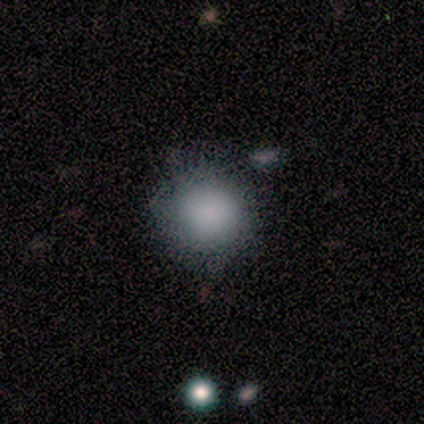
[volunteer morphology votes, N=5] smooth-or-featured: smooth: 100% | featured or disk: 0% | star or artifact: 0%
  how-rounded: round: 100% | in between: 0% | cigar-shaped: 0%
  merging: none: 40% (tied) | minor disturbance: 40% (tied) | merger: 20% | major disturbance: 0%